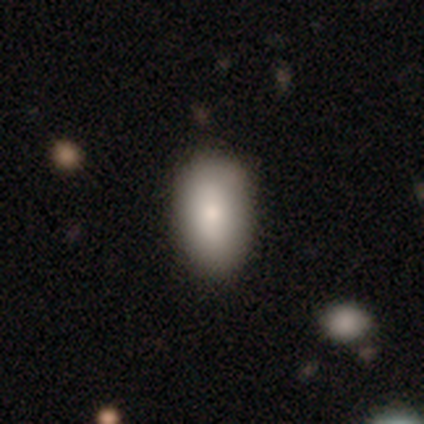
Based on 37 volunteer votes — A smooth galaxy with no disk features (78%) that is in between round and cigar-shaped (93%). Merging: none (86%).